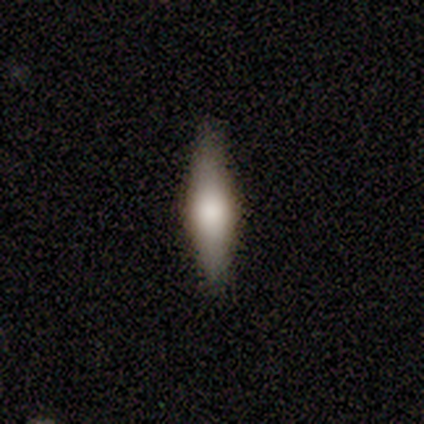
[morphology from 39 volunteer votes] Q: Smooth or featured?
A: smooth (56%); runner-up: featured or disk (36%)
Q: How rounded?
A: cigar-shaped (59%); runner-up: in between (36%)
Q: Merging?
A: none (83%); runner-up: minor disturbance (11%)